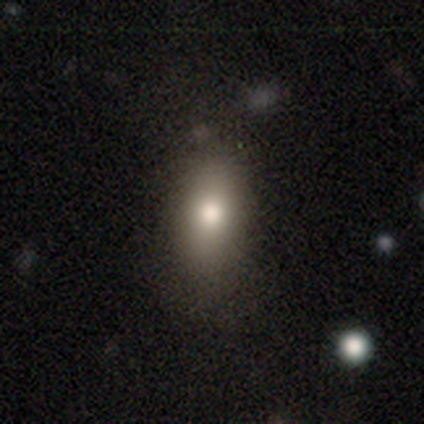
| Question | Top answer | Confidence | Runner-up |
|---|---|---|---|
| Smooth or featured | smooth | 62% | featured or disk (25%) |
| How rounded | in between | 80% | cigar-shaped (16%) |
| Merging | none | 74% | major disturbance (14%) |